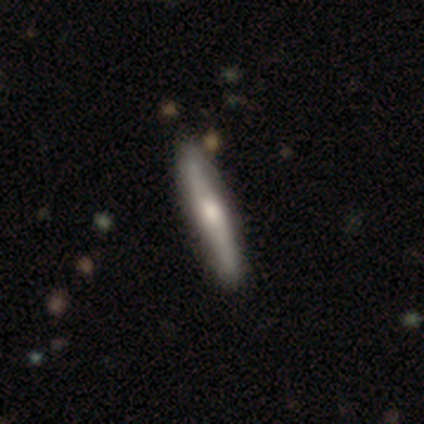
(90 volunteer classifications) This is possibly a smooth galaxy (49%). How rounded: clearly cigar-shaped (95%). Merging: clearly none (91%).